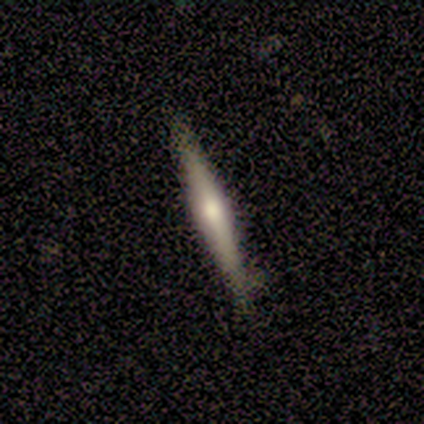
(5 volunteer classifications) Smooth or featured?
  - featured or disk: 80% *
  - smooth: 20%
  - star or artifact: 0%
Edge-on disk?
  - yes: 100% *
  - no: 0%
Edge-on bulge?
  - rounded: 75% *
  - boxy: 25%
  - none: 0%
Merging?
  - none: 60% *
  - minor disturbance: 40%
  - major disturbance: 0%
  - merger: 0%